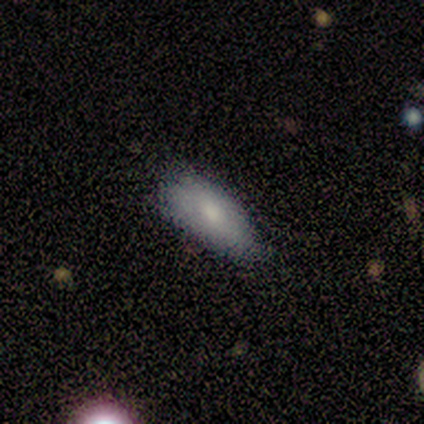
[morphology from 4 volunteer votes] Volunteers were most divided on "merging" (2-way tie): none: 50%, minor disturbance: 50%, major disturbance: 0%, merger: 0%. More confident: smooth or featured — smooth (100%); how rounded — in between (75%).